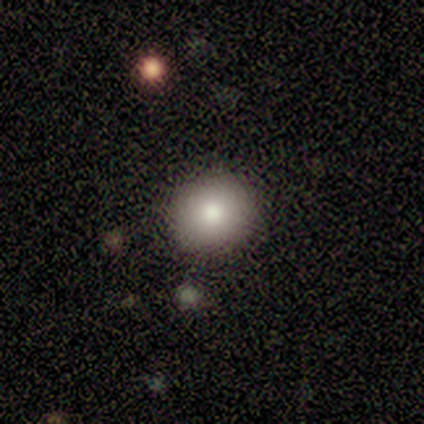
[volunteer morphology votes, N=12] Smooth or featured?
  - smooth: 83% *
  - featured or disk: 17%
  - star or artifact: 0%
How rounded?
  - round: 100% *
  - in between: 0%
  - cigar-shaped: 0%
Merging?
  - none: 83% *
  - minor disturbance: 17%
  - major disturbance: 0%
  - merger: 0%